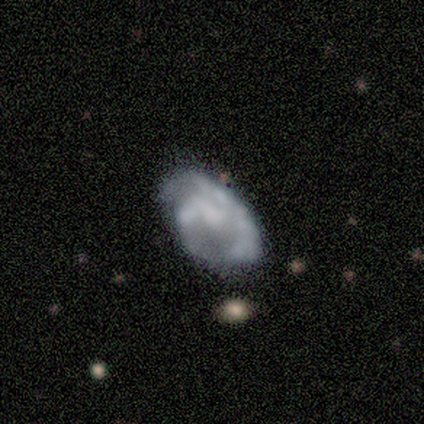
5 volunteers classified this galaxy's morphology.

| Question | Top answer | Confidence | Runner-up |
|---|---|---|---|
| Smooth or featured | featured or disk | 60% | smooth (40%) |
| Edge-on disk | no | 100% | — |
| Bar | weak | 67% | no (33%) |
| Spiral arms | yes | 100% | — |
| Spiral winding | medium | 67% | loose (33%) |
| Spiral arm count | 1 | 33% | tied: 2 (33%), can't tell (33%) |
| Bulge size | moderate | 33% | tied: small (33%), none (33%) |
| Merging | none | 40% | tied: major disturbance (40%) |